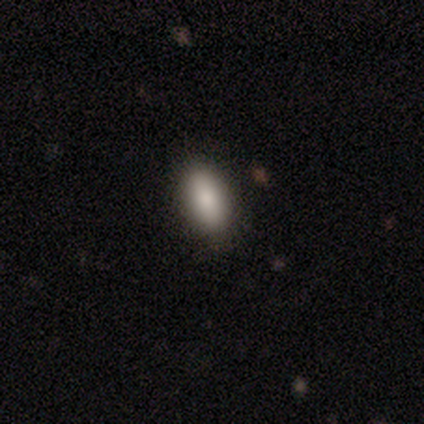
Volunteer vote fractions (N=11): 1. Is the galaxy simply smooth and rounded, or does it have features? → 100% smooth, 0% featured or disk, 0% star or artifact.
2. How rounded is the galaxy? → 100% in between, 0% round, 0% cigar-shaped.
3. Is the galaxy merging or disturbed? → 100% none, 0% minor disturbance, 0% major disturbance, 0% merger.